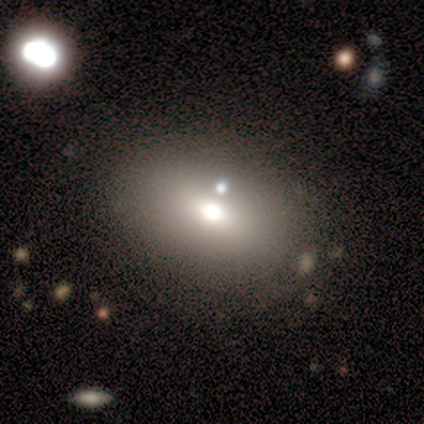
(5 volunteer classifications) smooth_or_featured: smooth (p=0.60) [alt: star or artifact p=0.40]
how_rounded: in between (p=0.67) [alt: round p=0.33]
merging: none (p=1.00)